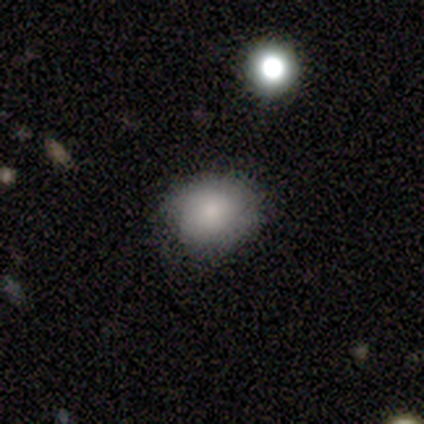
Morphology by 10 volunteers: Smooth or featured? smooth (70%)
How rounded? round (71%)
Merging? none (62%)